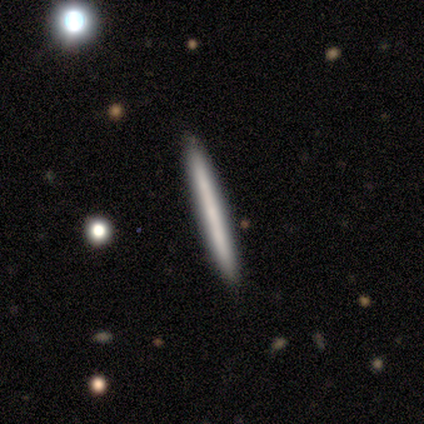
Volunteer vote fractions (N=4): smooth_or_featured: smooth (p=0.75) [alt: featured or disk p=0.25]
how_rounded: cigar-shaped (p=1.00)
merging: none (p=1.00)